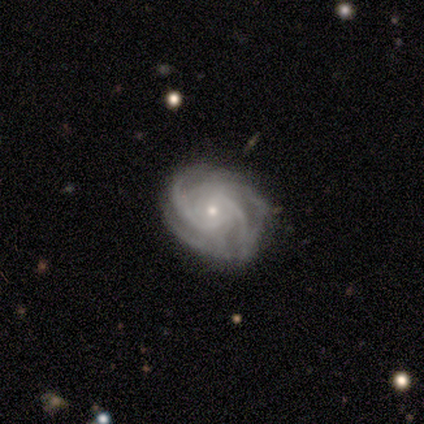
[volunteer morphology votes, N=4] smooth-or-featured: featured or disk: 100% | smooth: 0% | star or artifact: 0%
  disk-edge-on: no: 100% | yes: 0%
    bar: no: 75% | weak: 25% | strong: 0%
    has-spiral-arms: yes: 100% | no: 0%
      spiral-winding: medium: 50% | tight: 25% | loose: 25%
      spiral-arm-count: can't tell: 50% | 3: 25% | more than 4: 25% | 1: 0% | 2: 0% | 4: 0%
    bulge-size: moderate: 75% | small: 25% | dominant: 0% | large: 0% | none: 0%
  merging: none: 75% | minor disturbance: 25% | major disturbance: 0% | merger: 0%